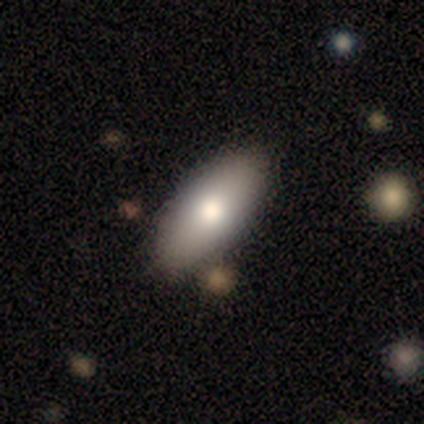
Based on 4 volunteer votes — Smooth or featured? 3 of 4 (75%) said smooth. How rounded? 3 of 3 (100%) said in between. Merging? 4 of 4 (100%) said none.